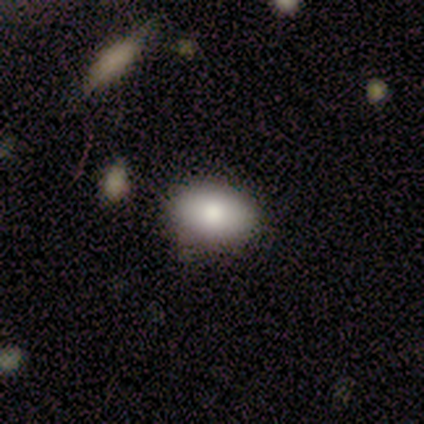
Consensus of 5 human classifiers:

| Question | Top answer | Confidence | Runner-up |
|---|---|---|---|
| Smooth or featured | smooth | 100% | — |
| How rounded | in between | 80% | round (20%) |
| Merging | none | 80% | merger (20%) |